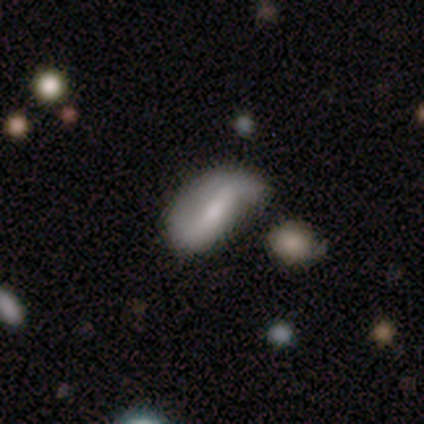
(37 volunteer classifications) Smooth or featured? 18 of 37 (49%) said featured or disk. Edge-on disk? 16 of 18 (89%) said no. Bar? 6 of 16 (38%) said strong. Spiral arms? 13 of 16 (81%) said yes. Spiral winding? 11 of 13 (85%) said loose. Spiral arm count? 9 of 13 (69%) said 2. Bulge size? 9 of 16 (56%) said small. Merging? 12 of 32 (38%) said minor disturbance.